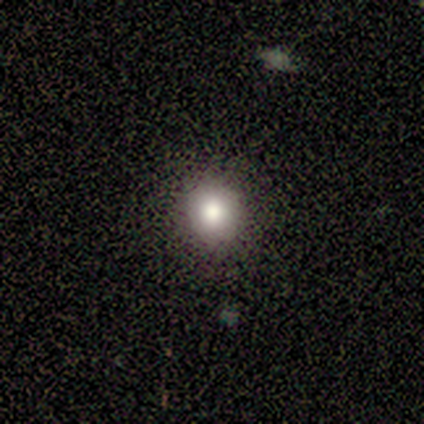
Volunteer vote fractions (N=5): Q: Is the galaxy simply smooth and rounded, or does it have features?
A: smooth — 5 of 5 (100%).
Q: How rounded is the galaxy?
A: round — 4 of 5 (80%).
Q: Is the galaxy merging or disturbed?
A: none — 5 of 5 (100%).